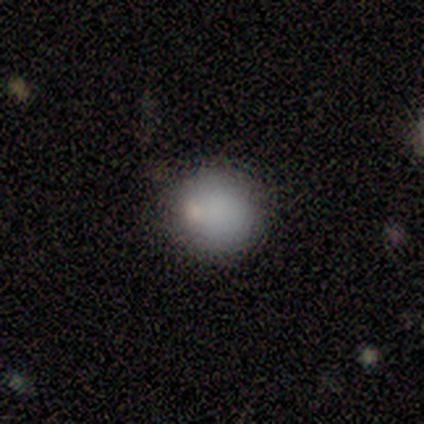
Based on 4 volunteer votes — This is likely a smooth galaxy (75%). How rounded: clearly round (100%). Merging: clearly none (100%).